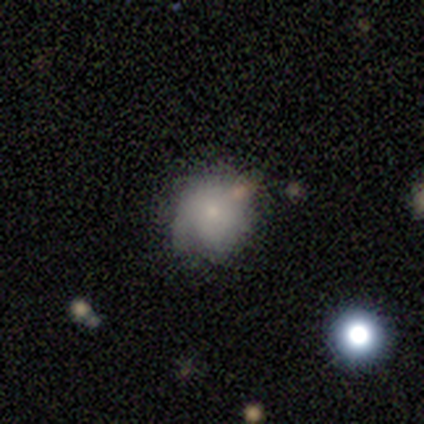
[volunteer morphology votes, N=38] Overall: smooth (71%). How rounded: round (100%). Merging: none (74%).